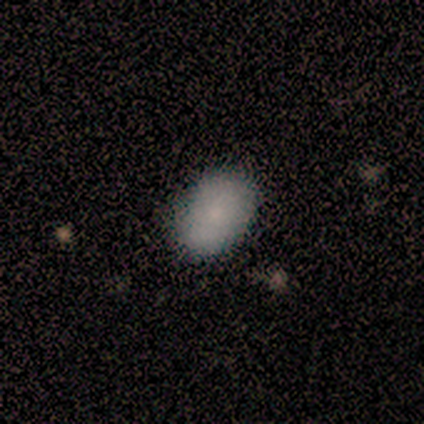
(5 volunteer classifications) smooth_or_featured: smooth (p=0.80) [alt: star or artifact p=0.20]
how_rounded: in between (p=1.00)
merging: none (p=1.00)